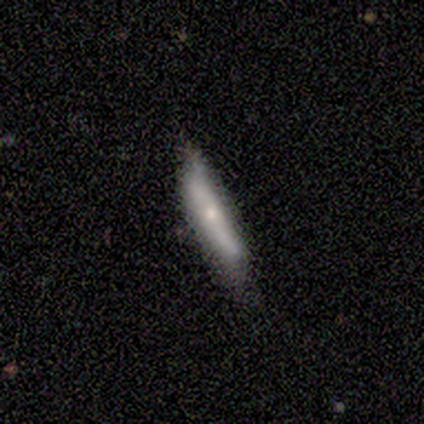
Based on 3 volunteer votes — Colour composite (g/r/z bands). It shows a featured or disk galaxy (67%) viewed edge-on (100%) with no central bulge (100%). Merging: none (67%).